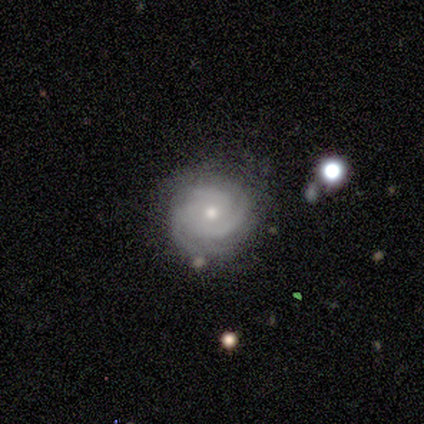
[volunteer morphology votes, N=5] Smooth or featured? 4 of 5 (80%) said featured or disk. Edge-on disk? 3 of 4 (75%) said no. Bar? 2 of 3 (67%) said no. Spiral arms? 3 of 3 (100%) said yes. Spiral winding? 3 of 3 (100%) said tight. Spiral arm count? 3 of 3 (100%) said 3. Bulge size? 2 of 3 (67%) said moderate. Merging? 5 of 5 (100%) said none.